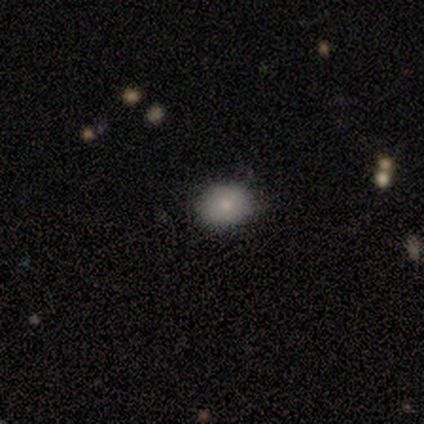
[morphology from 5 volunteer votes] Volunteers were most divided on "smooth or featured" (2-way tie): smooth: 40%, star or artifact: 40%, featured or disk: 20%; "how rounded" (2-way tie): round: 50%, in between: 50%, cigar-shaped: 0%. More confident: merging — none (100%).